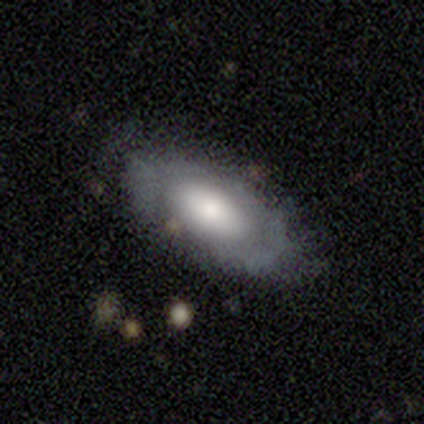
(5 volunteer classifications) A smooth galaxy with no disk features (60%) that is in between round and cigar-shaped (100%). Merging: none (80%).